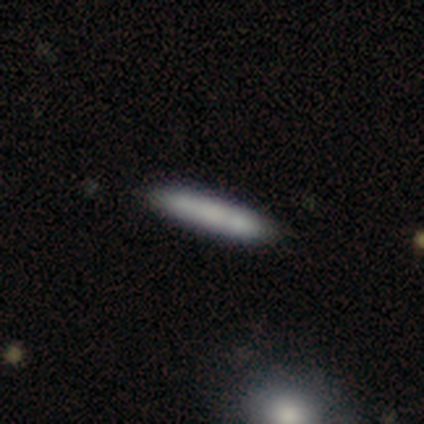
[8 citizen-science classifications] smooth_or_featured: smooth (p=0.88) [alt: featured or disk p=0.12]
how_rounded: cigar-shaped (p=1.00)
merging: none (p=0.88) [alt: minor disturbance p=0.12]